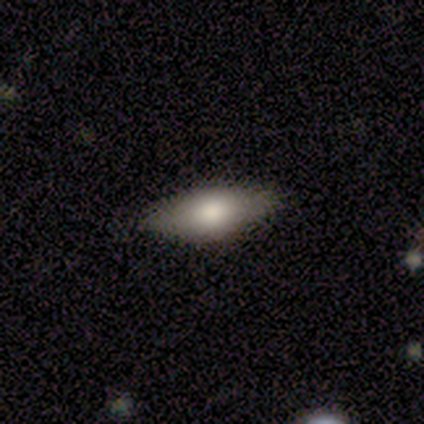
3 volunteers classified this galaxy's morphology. A smooth galaxy with no disk features (100%) that is in between round and cigar-shaped (67%). Merging: none (100%).